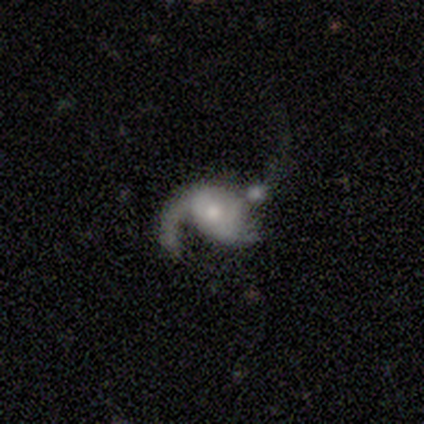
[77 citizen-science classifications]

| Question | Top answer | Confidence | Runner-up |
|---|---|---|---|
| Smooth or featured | featured or disk | 71% | smooth (23%) |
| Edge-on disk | no | 98% | yes (2%) |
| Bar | no | 91% | weak (7%) |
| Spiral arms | yes | 70% | no (30%) |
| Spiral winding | loose | 74% | medium (26%) |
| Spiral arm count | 1 | 53% | 2 (32%) |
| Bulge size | moderate | 44% | small (43%) |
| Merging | major disturbance | 21% | merger (16%) |